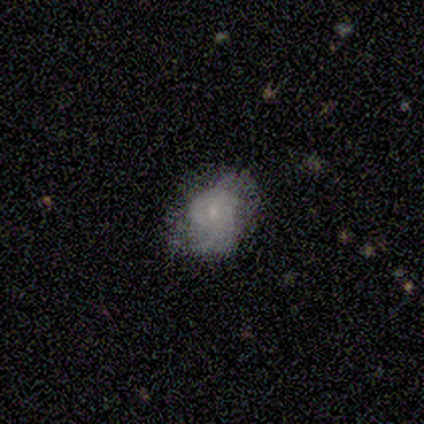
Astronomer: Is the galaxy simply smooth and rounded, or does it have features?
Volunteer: smooth — 60% (runner-up: featured or disk, 40%).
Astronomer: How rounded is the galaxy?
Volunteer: in between — 67%.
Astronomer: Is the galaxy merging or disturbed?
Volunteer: none — 60% (runner-up: minor disturbance, 40%).